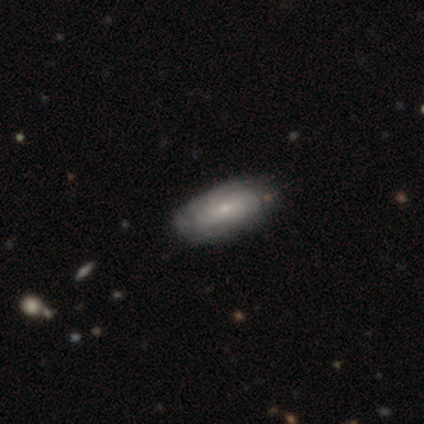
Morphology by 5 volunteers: type=smooth (60%); roundness=in between (100%); merging=none (40%, tied with minor disturbance).